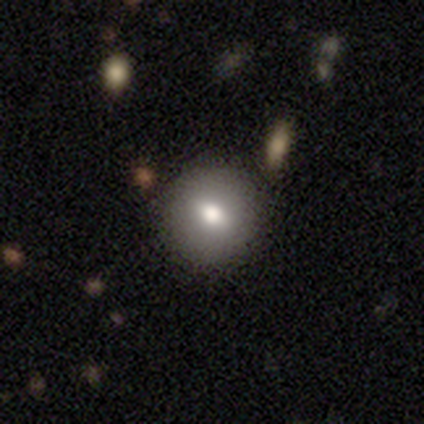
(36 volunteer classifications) This is likely a smooth galaxy (75%). How rounded: likely round (78%). Merging: likely none (70%).